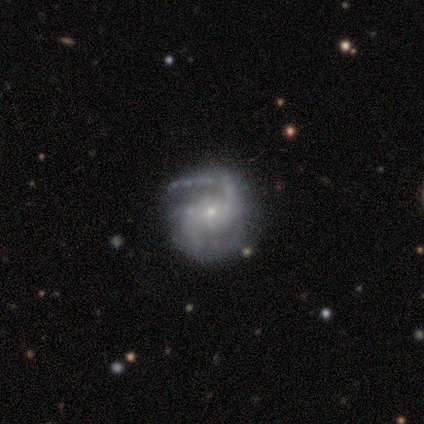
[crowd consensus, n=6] This is clearly a featured or disk galaxy (83%). It is clearly not viewed edge-on (100%). Bar: clearly no (80%). Spiral arm pattern: clearly yes (100%). Spiral arm count: clearly 2 (80%). Spiral winding: clearly medium (80%). Central bulge: clearly small (100%). Merging: possibly none (50%).